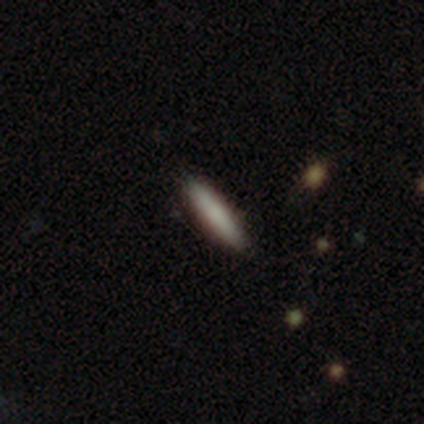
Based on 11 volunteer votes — smooth 91%, featured or disk 9%, star or artifact 0%. Down the decision tree: how rounded — cigar-shaped (80%); merging — none (91%).